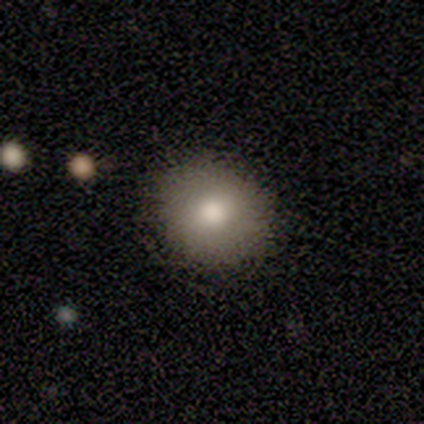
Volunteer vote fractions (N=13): Smooth or featured? 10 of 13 (77%) said smooth. How rounded? 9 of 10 (90%) said round. Merging? 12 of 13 (92%) said none.